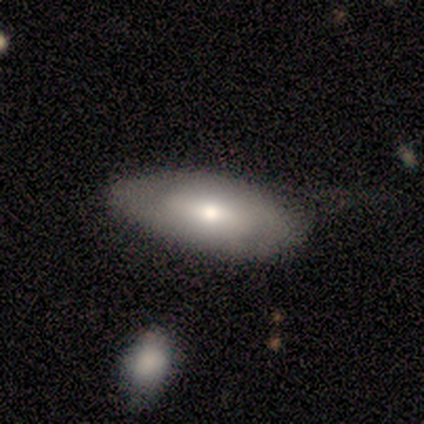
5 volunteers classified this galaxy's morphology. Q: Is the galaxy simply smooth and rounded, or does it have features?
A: smooth — 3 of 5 (60%).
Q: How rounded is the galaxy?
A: in between — 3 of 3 (100%).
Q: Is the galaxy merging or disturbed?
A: none — 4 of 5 (80%).